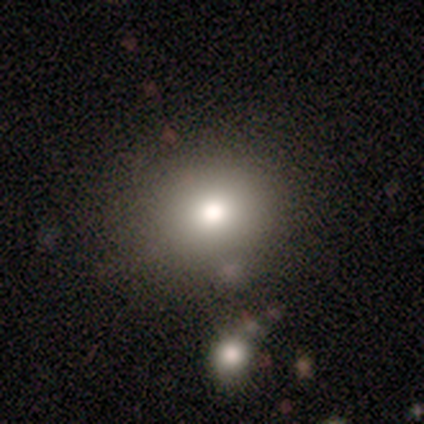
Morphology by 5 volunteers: Smooth or featured: smooth — 100%
How rounded: round — 100%
Merging: none — 60% (minor disturbance — 20%)